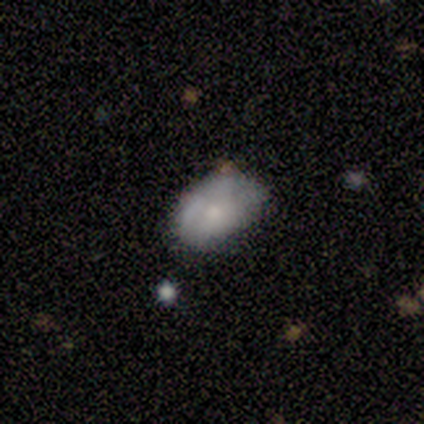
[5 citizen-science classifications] A smooth galaxy with no disk features (100%) that is in between round and cigar-shaped (100%). Merging: none (100%).